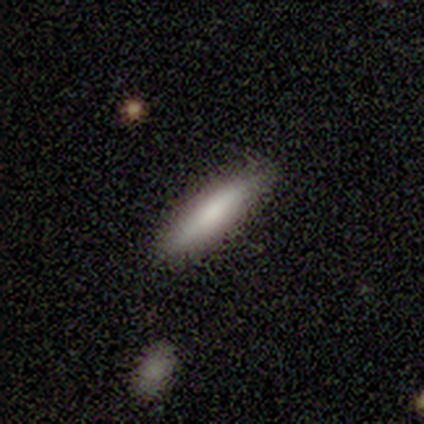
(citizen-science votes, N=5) Volunteers were most divided on "how rounded": cigar-shaped: 80%, in between: 20%, round: 0%. More confident: smooth or featured — smooth (100%); merging — none (100%).